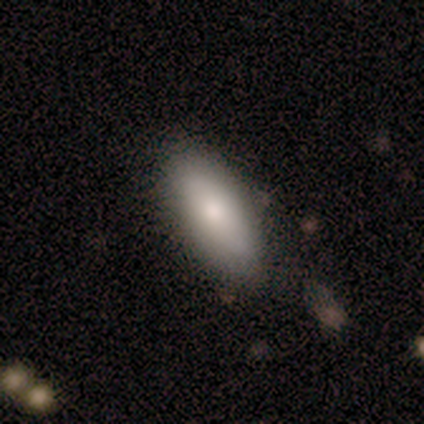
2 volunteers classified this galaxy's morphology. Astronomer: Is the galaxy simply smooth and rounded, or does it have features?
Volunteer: smooth — 100%.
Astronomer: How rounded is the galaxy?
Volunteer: in between — 50%, tied with cigar-shaped at 50%.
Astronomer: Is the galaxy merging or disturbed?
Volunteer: minor disturbance — 100%.